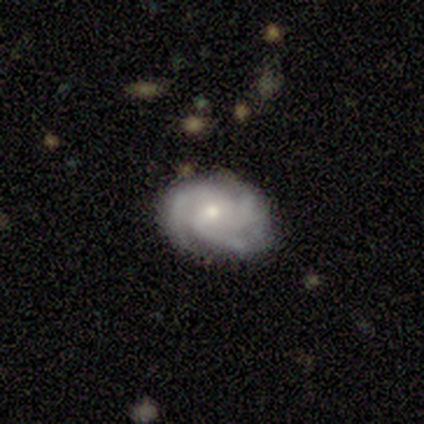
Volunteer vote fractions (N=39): Smooth or featured? 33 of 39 (85%) said featured or disk. Edge-on disk? 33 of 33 (100%) said no. Bar? 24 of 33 (73%) said no. Spiral arms? 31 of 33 (94%) said yes. Spiral winding? 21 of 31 (68%) said tight. Spiral arm count? 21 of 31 (68%) said 3. Bulge size? 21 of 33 (64%) said small. Merging? 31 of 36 (86%) said none.